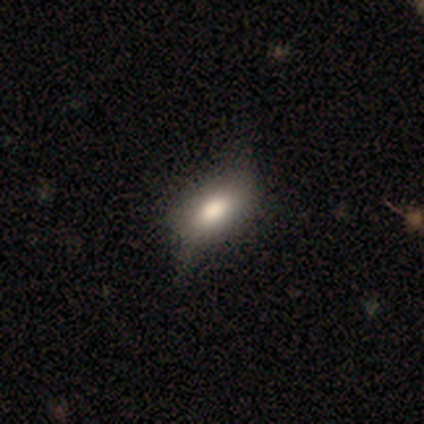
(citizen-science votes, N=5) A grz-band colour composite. It shows a smooth galaxy with no disk features (60%) that is in between round and cigar-shaped (100%). Merging: minor disturbance (50%).